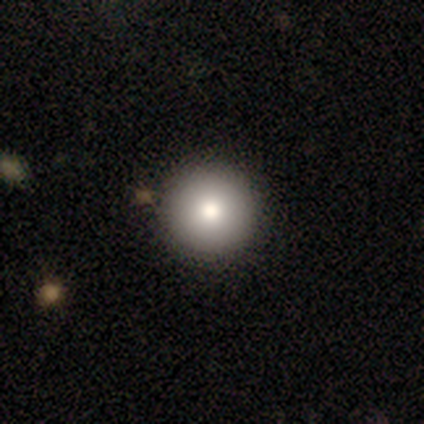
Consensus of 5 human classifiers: smooth 80%, star or artifact 20%, featured or disk 0%. Down the decision tree: how rounded — round (75%); merging — none (75%).